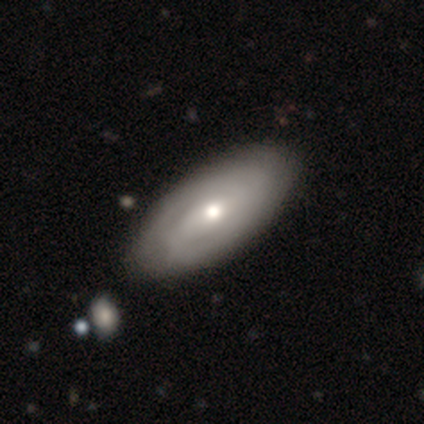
Smooth or featured? featured or disk (60%)
Edge-on disk? no (100%)
Bar? weak (67%)
Spiral arms? yes (100%)
Spiral winding? tight (100%)
Spiral arm count? 2 (100%)
Bulge size? moderate (67%)
Merging? none (75%)